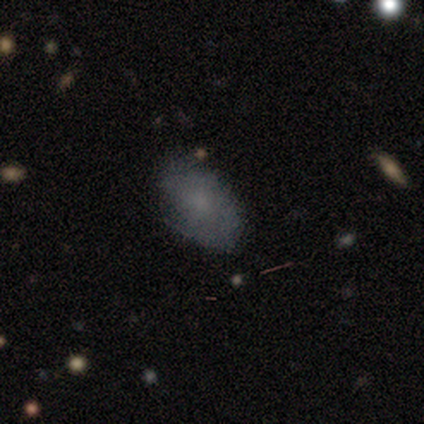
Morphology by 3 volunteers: This is marginally a smooth galaxy (33%, tied with featured or disk and star or artifact). How rounded: clearly in between (100%). Merging: clearly none (100%).